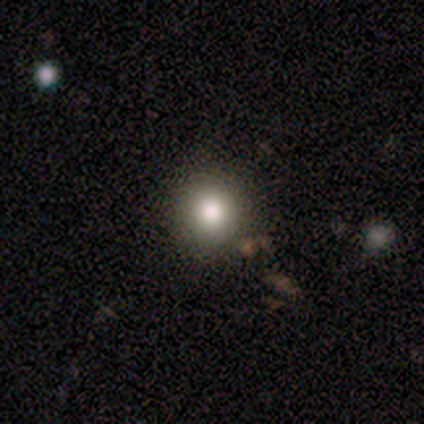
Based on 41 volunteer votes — Smooth or featured? smooth (66%)
How rounded? round (100%)
Merging? none (97%)